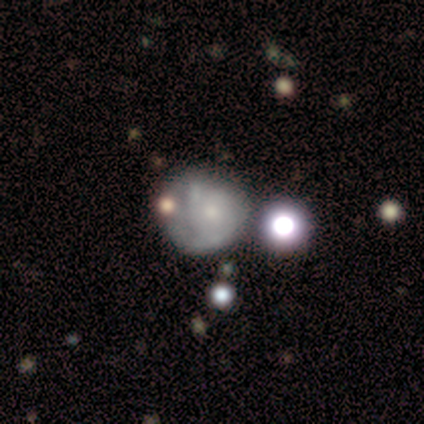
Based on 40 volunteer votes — Overall: featured or disk (42%; smooth 38%). Edge-on disk: no (100%). Bar: no (82%). Spiral arms: yes (65%; no 35%). Spiral arm count: 2 (55%; can't tell 45%). Spiral winding: tight (45%; medium 27%). Bulge size: small (71%). Merging: none (41%; minor disturbance 25%).